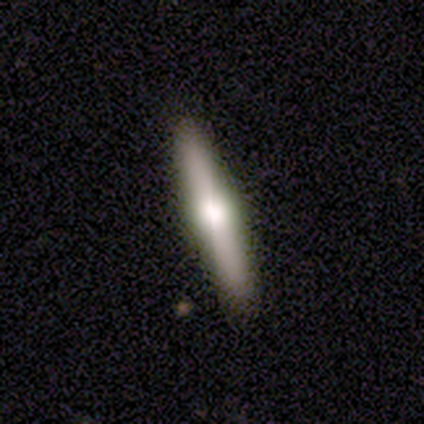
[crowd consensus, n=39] A featured or disk galaxy (59%) viewed edge-on (100%) with a rounded central bulge (100%). Merging: none (97%).